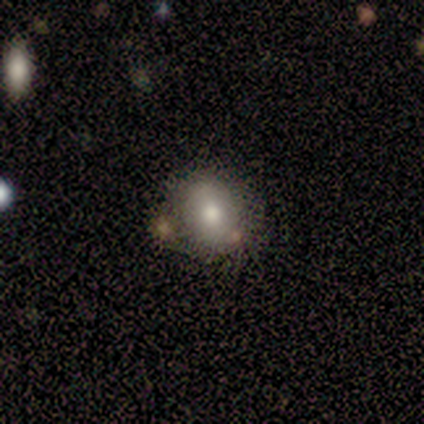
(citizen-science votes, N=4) smooth 50% (tied), featured or disk 50% (tied), star or artifact 0%. Down the decision tree: how rounded — in between (100%); merging — none (100%).